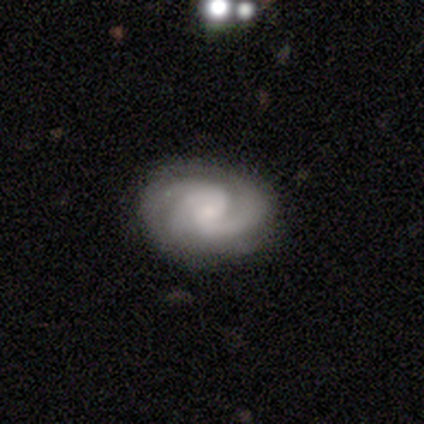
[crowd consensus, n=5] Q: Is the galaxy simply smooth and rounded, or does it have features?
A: featured or disk — 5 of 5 (100%).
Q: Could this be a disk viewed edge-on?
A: no — 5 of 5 (100%).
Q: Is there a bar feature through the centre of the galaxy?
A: no — 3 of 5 (60%).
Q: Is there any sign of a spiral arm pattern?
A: yes — 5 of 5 (100%).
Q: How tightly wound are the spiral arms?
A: medium — 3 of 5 (60%).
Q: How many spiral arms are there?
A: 3 — 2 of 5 (40%, tied with can't tell).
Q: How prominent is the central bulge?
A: small — 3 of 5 (60%).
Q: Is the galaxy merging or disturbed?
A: none — 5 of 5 (100%).